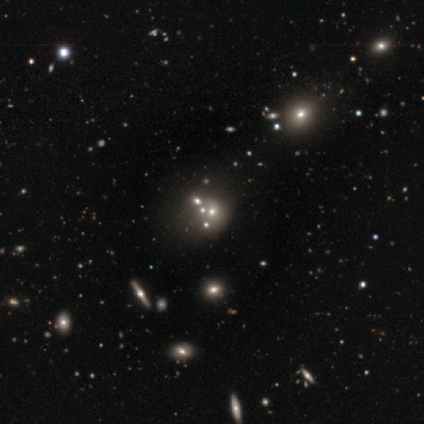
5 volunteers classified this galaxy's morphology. Smooth or featured?
  - smooth: 40% * (tied)
  - star or artifact: 40% * (tied)
  - featured or disk: 20%
How rounded?
  - round: 100% *
  - in between: 0%
  - cigar-shaped: 0%
Merging?
  - none: 67% *
  - merger: 33%
  - minor disturbance: 0%
  - major disturbance: 0%